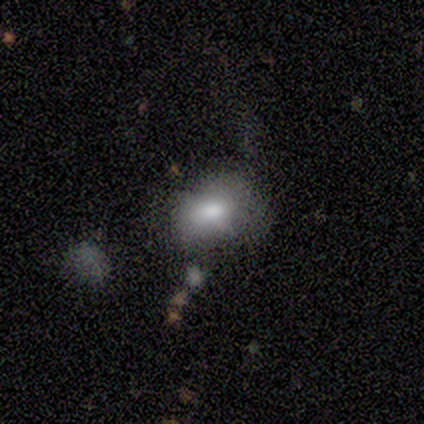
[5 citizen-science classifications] Q: Smooth or featured?
A: smooth (60%); runner-up: star or artifact (40%)
Q: How rounded?
A: in between (100%)
Q: Merging?
A: none (100%)